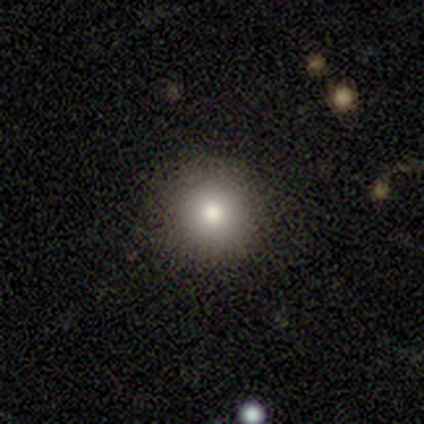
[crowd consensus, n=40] Smooth or featured?
  - smooth: 85% *
  - star or artifact: 12%
  - featured or disk: 2%
How rounded?
  - round: 100% *
  - in between: 0%
  - cigar-shaped: 0%
Merging?
  - none: 94% *
  - minor disturbance: 3%
  - major disturbance: 3%
  - merger: 0%